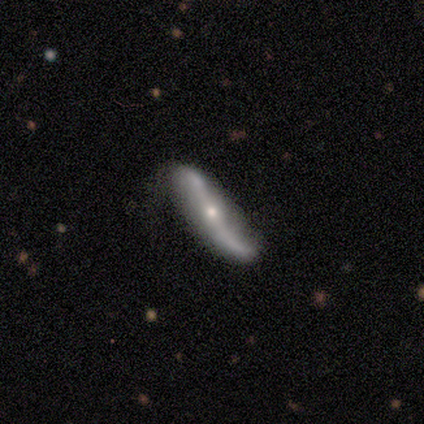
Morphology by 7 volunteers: This is clearly a featured or disk galaxy (86%). It is clearly not viewed edge-on (83%). Bar: clearly no (80%). Spiral arm pattern: clearly yes (100%). Spiral arm count: clearly 2 (100%). Spiral winding: clearly loose (100%). Central bulge: clearly small (100%). Merging: possibly none (57%).